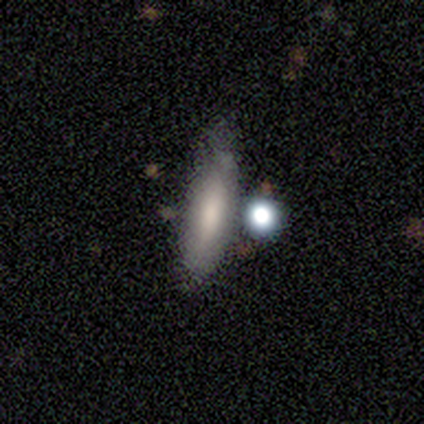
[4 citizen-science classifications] A smooth galaxy with no disk features (50%, tied with featured or disk) that is cigar-shaped (100%). Merging: none (50%, tied with minor disturbance).